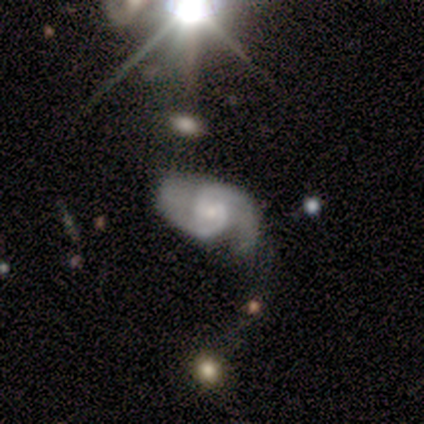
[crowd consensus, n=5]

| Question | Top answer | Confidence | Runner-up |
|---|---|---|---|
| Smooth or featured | featured or disk | 100% | — |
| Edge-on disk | no | 80% | yes (20%) |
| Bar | no | 75% | weak (25%) |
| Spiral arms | yes | 100% | — |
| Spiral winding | medium | 75% | loose (25%) |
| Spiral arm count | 2 | 75% | can't tell (25%) |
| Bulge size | small | 100% | — |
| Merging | minor disturbance | 60% | none (40%) |